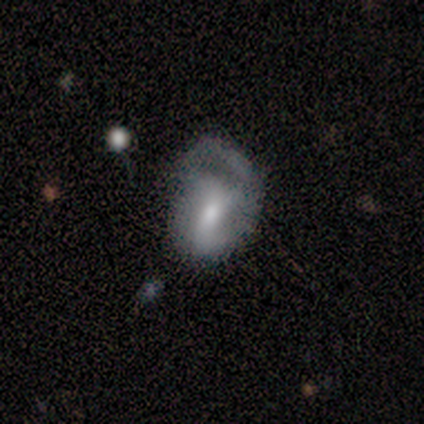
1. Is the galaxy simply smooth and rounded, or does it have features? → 61% featured or disk, 34% smooth, 5% star or artifact.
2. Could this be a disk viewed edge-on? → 100% no, 0% yes.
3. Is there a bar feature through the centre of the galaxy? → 39% weak, 30% strong, 30% no.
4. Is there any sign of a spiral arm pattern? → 87% yes, 13% no.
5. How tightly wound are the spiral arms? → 50% medium, 25% tight, 25% loose.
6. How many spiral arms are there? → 45% 2, 30% can't tell, 25% 1, 0% 3, 0% 4, 0% more than 4.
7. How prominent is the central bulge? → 61% moderate, 26% small, 13% large, 0% dominant, 0% none.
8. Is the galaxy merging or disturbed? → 36% minor disturbance, 31% major disturbance, 28% none, 6% merger.